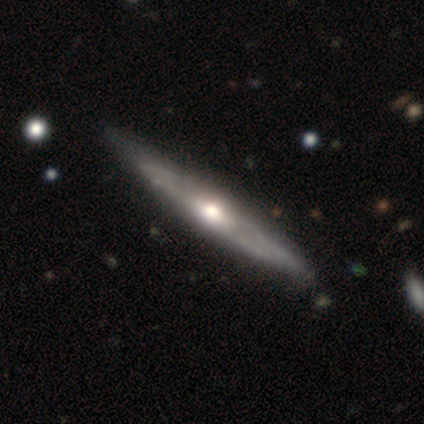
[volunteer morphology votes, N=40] Smooth or featured?
  - featured or disk: 92% *
  - smooth: 8%
  - star or artifact: 0%
Edge-on disk?
  - yes: 89% *
  - no: 11%
Edge-on bulge?
  - rounded: 88% *
  - boxy: 6%
  - none: 6%
Merging?
  - none: 48% *
  - minor disturbance: 10%
  - merger: 5%
  - major disturbance: 0%